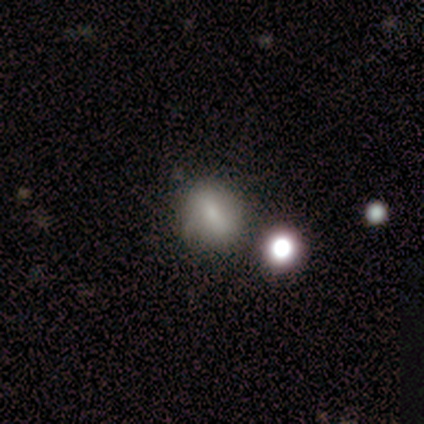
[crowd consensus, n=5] A smooth galaxy with no disk features (60%) that is round (100%). Merging: none (75%).